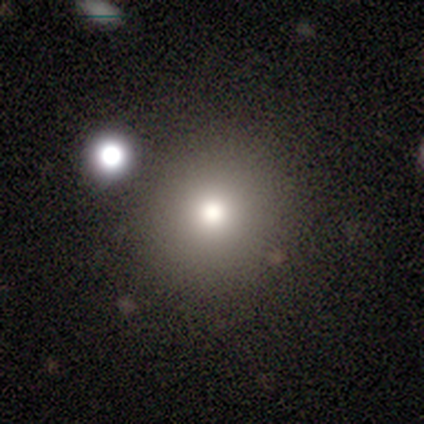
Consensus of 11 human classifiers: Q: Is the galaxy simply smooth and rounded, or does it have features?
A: smooth — 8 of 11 (73%).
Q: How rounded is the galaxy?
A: round — 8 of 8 (100%).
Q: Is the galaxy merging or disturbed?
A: none — 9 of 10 (90%).